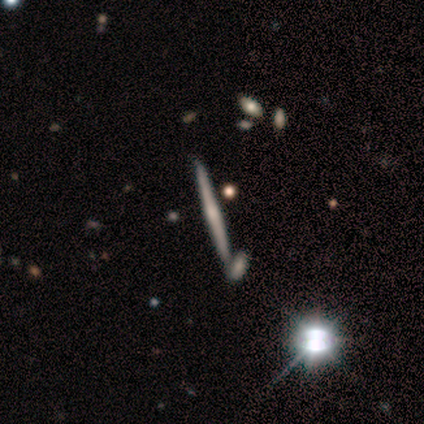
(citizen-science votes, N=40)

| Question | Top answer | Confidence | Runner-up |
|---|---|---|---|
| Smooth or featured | featured or disk | 75% | smooth (12%) |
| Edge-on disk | yes | 100% | — |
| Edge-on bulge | rounded | 47% | none (40%) |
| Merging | none | 40% | merger (31%) |